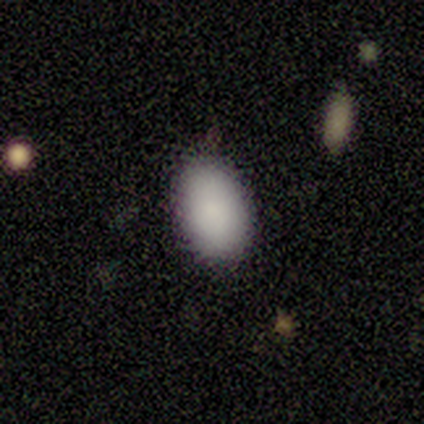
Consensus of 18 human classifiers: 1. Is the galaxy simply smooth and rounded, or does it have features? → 100% smooth, 0% featured or disk, 0% star or artifact.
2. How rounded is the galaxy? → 89% in between, 11% round, 0% cigar-shaped.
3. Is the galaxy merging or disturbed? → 89% none, 11% minor disturbance, 0% major disturbance, 0% merger.